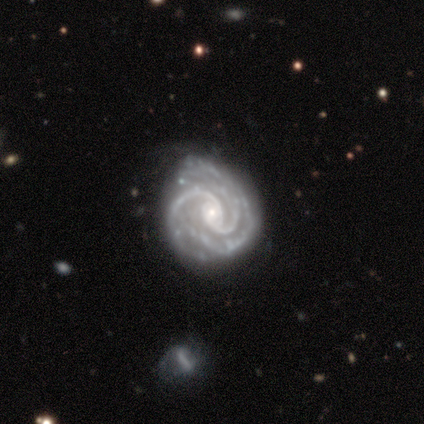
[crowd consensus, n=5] smooth_or_featured: featured or disk (p=1.00)
disk_edge_on: no (p=1.00)
bar: no (p=0.60) [alt: weak p=0.40]
has_spiral_arms: yes (p=1.00)
spiral_winding: tight (p=0.80) [alt: medium p=0.20]
spiral_arm_count: 2 (p=0.60) [alt: 3 p=0.40]
bulge_size: small (p=0.80) [alt: moderate p=0.20]
merging: minor disturbance (p=0.60) [alt: none p=0.40]